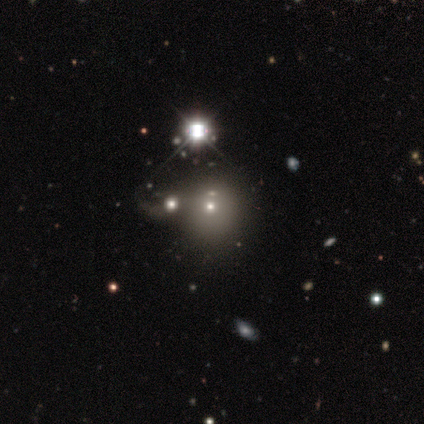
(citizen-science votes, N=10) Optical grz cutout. It shows a smooth galaxy with no disk features (50%) that is round (100%). Merging: none (83%).